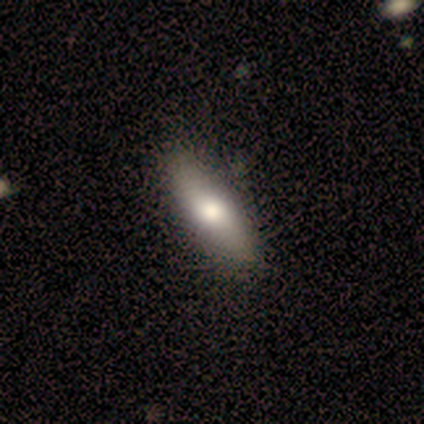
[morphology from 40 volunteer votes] Smooth or featured? 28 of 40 (70%) said smooth. How rounded? 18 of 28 (64%) said in between. Merging? 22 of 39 (56%) said none.